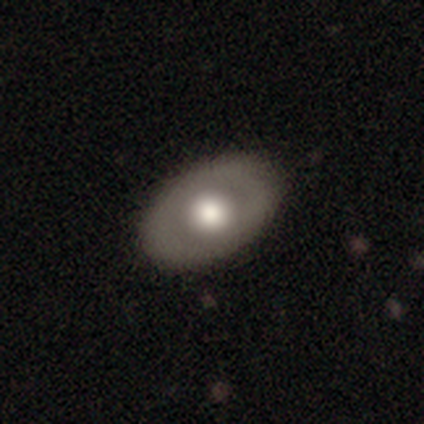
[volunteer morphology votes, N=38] smooth-or-featured: featured or disk: 53% | smooth: 45% | star or artifact: 3%
  disk-edge-on: no: 90% | yes: 10%
    bar: no: 100% | strong: 0% | weak: 0%
    has-spiral-arms: no: 100% | yes: 0%
    bulge-size: large: 61% | moderate: 39% | dominant: 0% | small: 0% | none: 0%
  merging: none: 68% | minor disturbance: 0% | major disturbance: 0% | merger: 0%